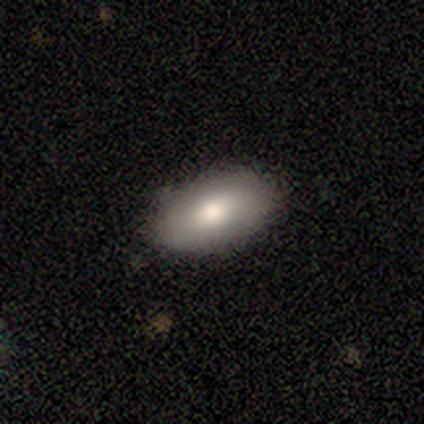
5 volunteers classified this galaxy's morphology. Smooth or featured: smooth — 80% (star or artifact — 20%)
How rounded: in between — 75% (cigar-shaped — 25%)
Merging: none — 75% (minor disturbance — 25%)